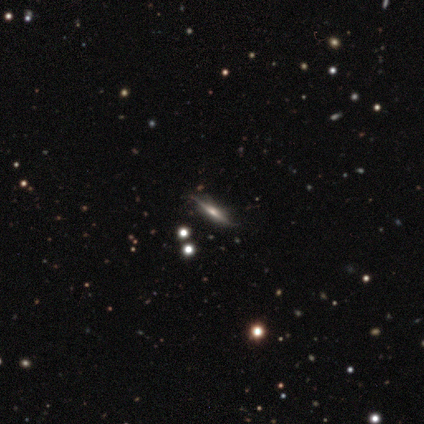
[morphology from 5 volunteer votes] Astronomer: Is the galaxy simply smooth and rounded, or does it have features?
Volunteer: featured or disk — 100%.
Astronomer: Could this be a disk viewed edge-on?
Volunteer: yes — 100%.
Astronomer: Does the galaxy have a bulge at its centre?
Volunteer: none — 60% (runner-up: rounded, 40%).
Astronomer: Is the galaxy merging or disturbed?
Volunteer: none — 80%.